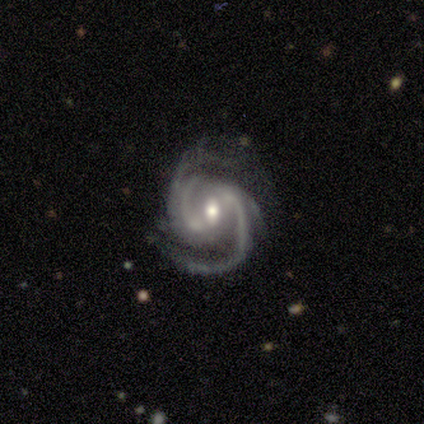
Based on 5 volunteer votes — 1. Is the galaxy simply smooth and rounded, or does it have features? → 100% featured or disk, 0% smooth, 0% star or artifact.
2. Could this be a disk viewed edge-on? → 100% no, 0% yes.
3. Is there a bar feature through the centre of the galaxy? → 60% weak, 40% no, 0% strong.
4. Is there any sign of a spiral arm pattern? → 100% yes, 0% no.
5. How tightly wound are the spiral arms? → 60% medium, 40% tight, 0% loose.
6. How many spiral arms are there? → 80% 2, 20% 4, 0% 1, 0% 3, 0% more than 4, 0% can't tell.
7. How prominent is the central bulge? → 80% moderate, 20% small, 0% dominant, 0% large, 0% none.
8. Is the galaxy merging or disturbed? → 100% none, 0% minor disturbance, 0% major disturbance, 0% merger.